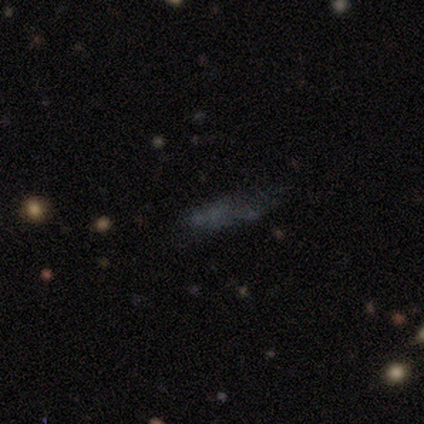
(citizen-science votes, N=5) Q: Smooth or featured?
A: smooth (40%); tied with: star or artifact (40%)
Q: How rounded?
A: cigar-shaped (100%)
Q: Merging?
A: none (33%); tied with: minor disturbance (33%); major disturbance (33%)